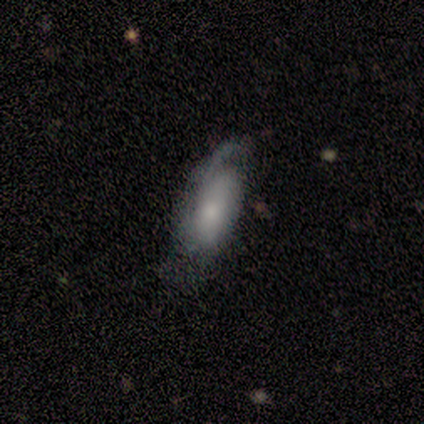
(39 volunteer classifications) smooth-or-featured: smooth: 56% | featured or disk: 41% | star or artifact: 3%
  how-rounded: in between: 82% | cigar-shaped: 18% | round: 0%
  merging: none: 42% | minor disturbance: 32% | major disturbance: 26% | merger: 0%